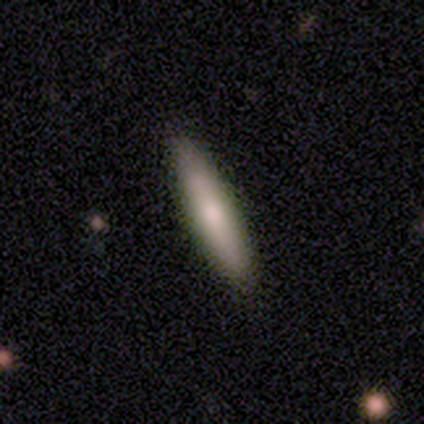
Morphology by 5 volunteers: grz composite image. It shows a smooth galaxy with no disk features (60%) that is cigar-shaped (100%). Merging: none (75%).